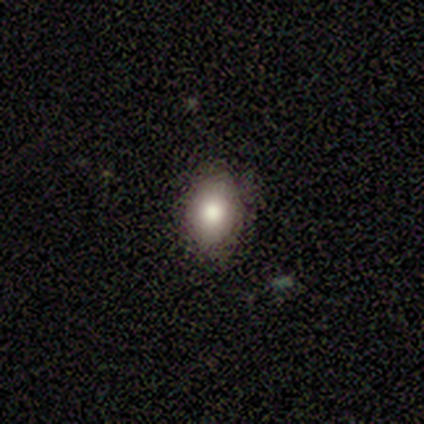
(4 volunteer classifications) This appears to be a smooth galaxy with no disk features (100%) that is in between round and cigar-shaped (75%). Merging: none (75%).